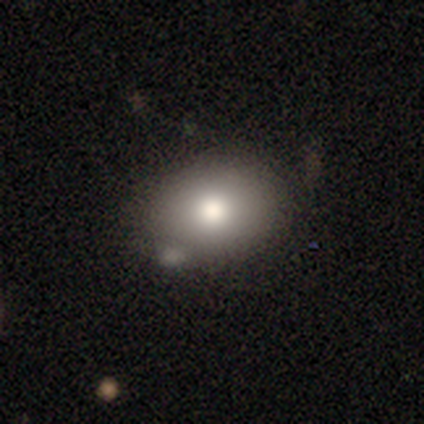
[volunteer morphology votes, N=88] Smooth or featured: smooth — 89% (featured or disk — 9%)
How rounded: in between — 72% (round — 26%)
Merging: none — 69% (minor disturbance — 20%)